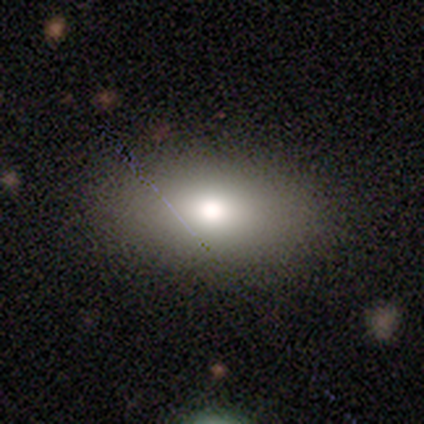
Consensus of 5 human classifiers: smooth-or-featured: smooth: 60% | star or artifact: 40% | featured or disk: 0%
  how-rounded: in between: 100% | round: 0% | cigar-shaped: 0%
  merging: none: 100% | minor disturbance: 0% | major disturbance: 0% | merger: 0%